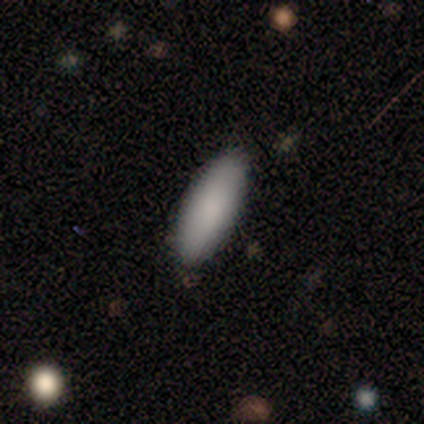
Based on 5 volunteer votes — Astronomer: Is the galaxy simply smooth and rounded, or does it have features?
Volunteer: smooth — 100%.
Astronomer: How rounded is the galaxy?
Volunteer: in between — 80%.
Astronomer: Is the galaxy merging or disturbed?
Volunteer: none — 80%.